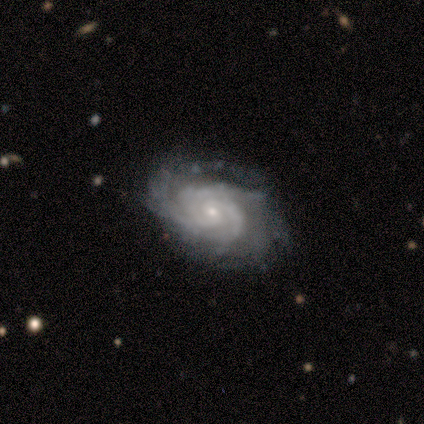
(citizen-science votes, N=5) Smooth or featured: featured or disk — 100%
Edge-on disk: no — 100%
Bar: no — 80% (weak — 20%)
Spiral arms: yes — 100%
Spiral winding: tight — 100%
Spiral arm count: 3 — 40% (tied with can't tell — 40%)
Bulge size: small — 100%
Merging: none — 60% (minor disturbance — 40%)